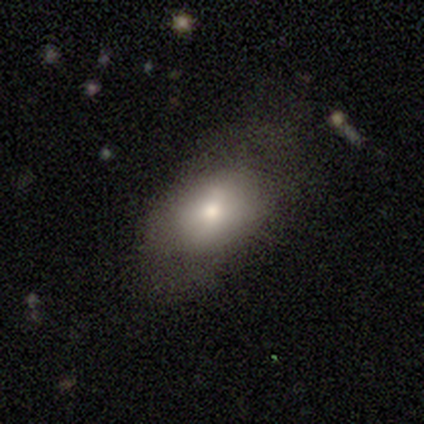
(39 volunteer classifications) A smooth galaxy with no disk features (72%) that is in between round and cigar-shaped (71%). Merging: none (55%).